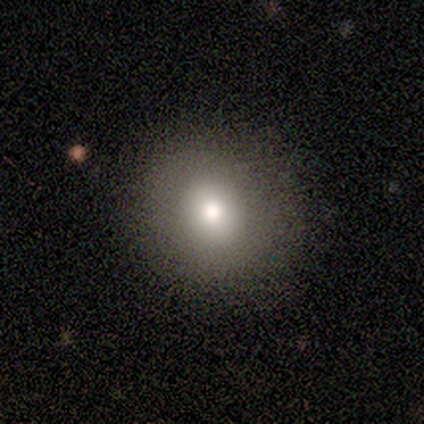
A smooth galaxy with no disk features (64%) that is round (86%). Merging: none (100%).